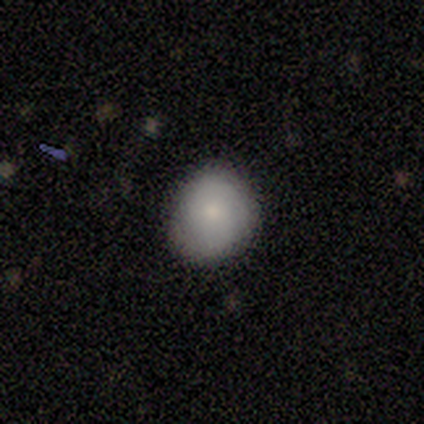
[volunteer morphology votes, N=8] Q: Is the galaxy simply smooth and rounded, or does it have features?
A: smooth — 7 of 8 (88%).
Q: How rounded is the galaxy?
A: round — 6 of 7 (86%).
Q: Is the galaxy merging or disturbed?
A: none — 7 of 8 (88%).